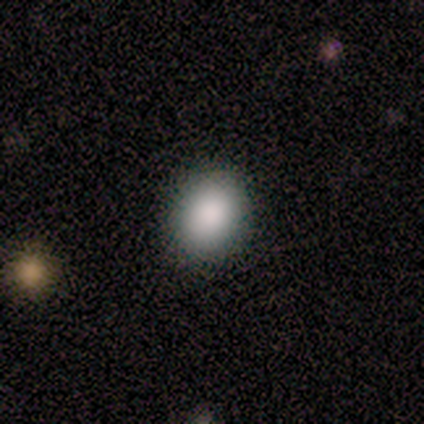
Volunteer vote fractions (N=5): This appears to be a smooth galaxy with no disk features (100%) that is round (60%). Merging: none (100%).